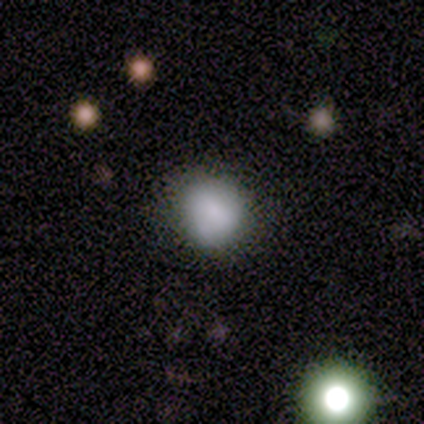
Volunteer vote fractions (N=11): Overall: smooth (64%). How rounded: round (71%). Merging: none (78%).